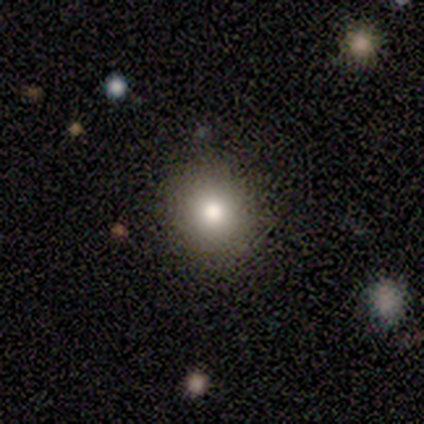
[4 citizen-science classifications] smooth_or_featured: smooth (p=1.00)
how_rounded: round (p=0.50) [tied with: in between p=0.50]
merging: none (p=1.00)